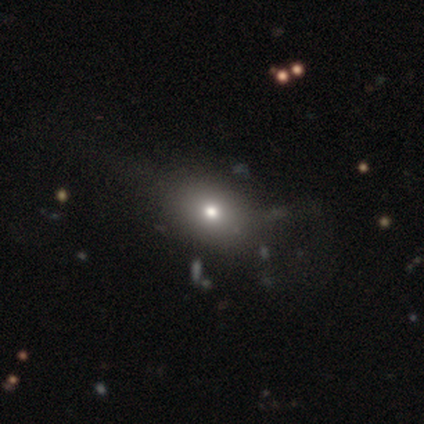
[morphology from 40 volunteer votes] Smooth or featured?
  - smooth: 68% *
  - star or artifact: 18%
  - featured or disk: 15%
How rounded?
  - round: 52% *
  - in between: 48%
  - cigar-shaped: 0%
Merging?
  - none: 52% *
  - minor disturbance: 15%
  - major disturbance: 9%
  - merger: 0%